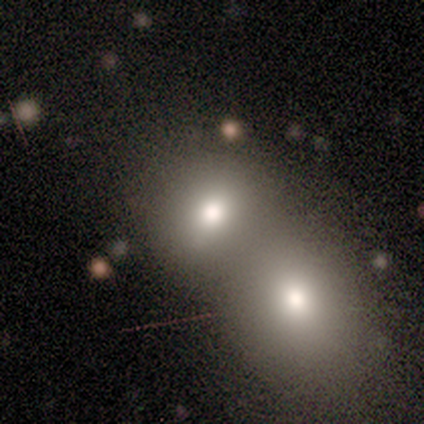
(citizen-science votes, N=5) smooth_or_featured: star or artifact (p=0.60) [alt: smooth p=0.40]